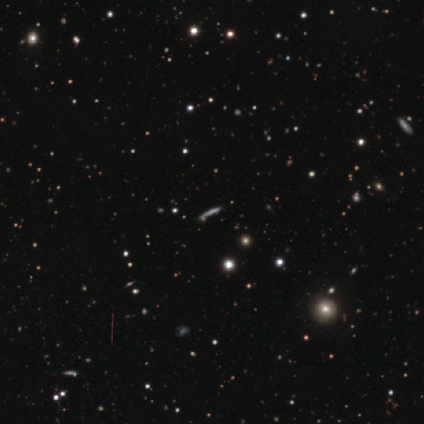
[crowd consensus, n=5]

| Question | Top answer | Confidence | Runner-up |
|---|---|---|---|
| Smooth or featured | smooth | 60% | featured or disk (40%) |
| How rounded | cigar-shaped | 100% | — |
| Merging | none | 80% | minor disturbance (20%) |